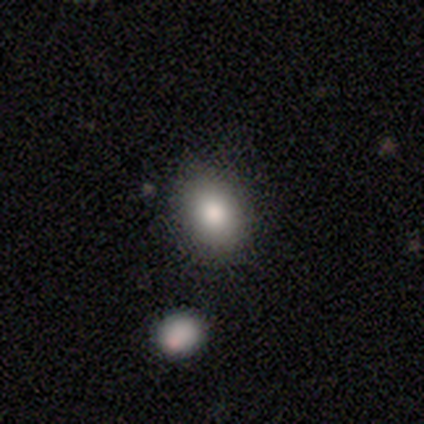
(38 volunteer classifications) Smooth or featured?
  - smooth: 95% *
  - featured or disk: 3%
  - star or artifact: 3%
How rounded?
  - in between: 69% *
  - round: 31%
  - cigar-shaped: 0%
Merging?
  - none: 89% *
  - minor disturbance: 11%
  - major disturbance: 0%
  - merger: 0%